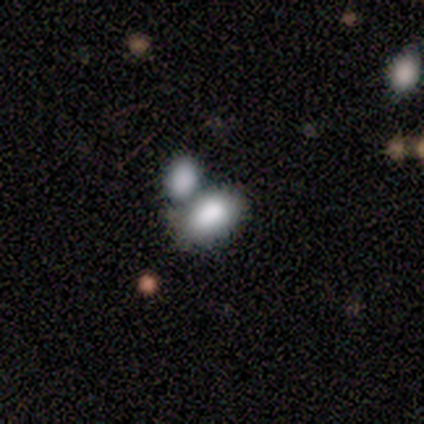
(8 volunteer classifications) smooth 100%, featured or disk 0%, star or artifact 0%. Down the decision tree: how rounded — in between (75%); merging — none (38%, tied with merger).